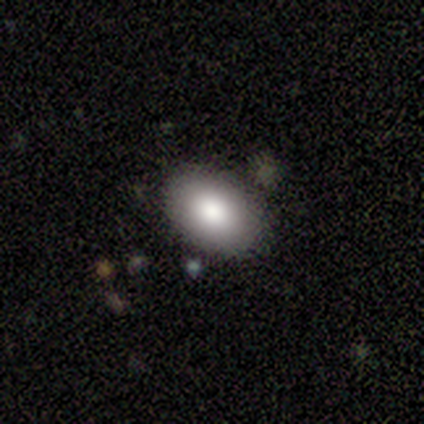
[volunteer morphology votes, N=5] type=smooth (100%); roundness=in between (100%); merging=none (80%).